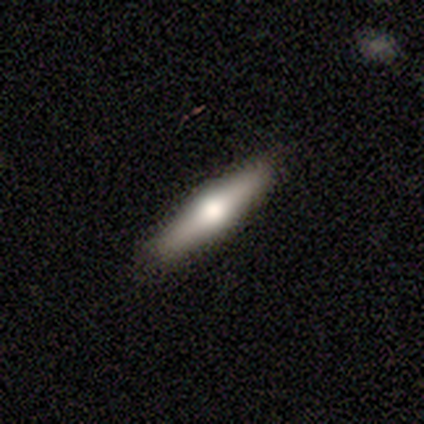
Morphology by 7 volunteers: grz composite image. It shows a featured or disk galaxy (57%) viewed edge-on (100%) with a rounded central bulge (100%). Merging: none (80%).